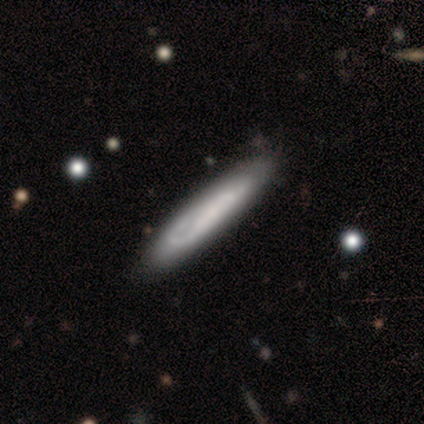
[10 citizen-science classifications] smooth 50%, featured or disk 40%, star or artifact 10%. Down the decision tree: how rounded — cigar-shaped (80%); merging — none (78%).